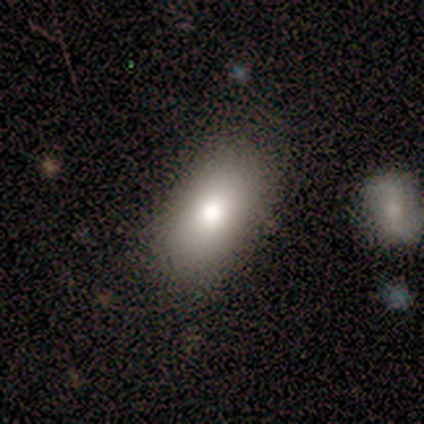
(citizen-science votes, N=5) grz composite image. It shows a smooth galaxy with no disk features (80%) that is in between round and cigar-shaped (100%). Merging: none (100%).